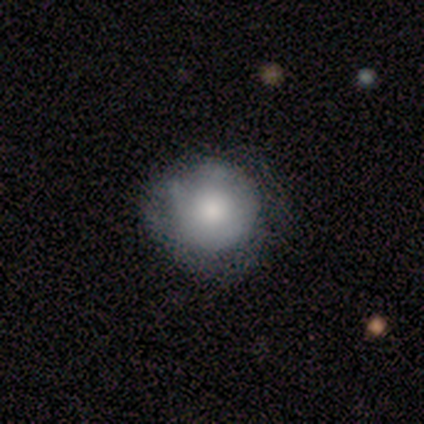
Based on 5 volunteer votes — Overall: smooth (60%; featured or disk 40%). How rounded: round (100%). Merging: none (60%; minor disturbance 40%).